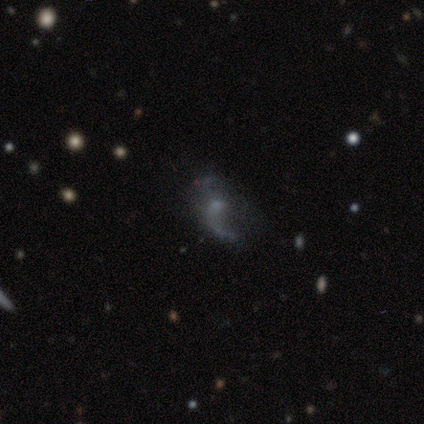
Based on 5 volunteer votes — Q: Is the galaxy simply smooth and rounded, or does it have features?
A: featured or disk — 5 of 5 (100%).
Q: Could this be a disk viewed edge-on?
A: no — 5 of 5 (100%).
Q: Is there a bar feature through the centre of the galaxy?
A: weak — 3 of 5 (60%).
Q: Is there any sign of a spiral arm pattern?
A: yes — 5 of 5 (100%).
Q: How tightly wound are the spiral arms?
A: loose — 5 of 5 (100%).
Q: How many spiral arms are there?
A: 1 — 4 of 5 (80%).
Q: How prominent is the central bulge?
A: small — 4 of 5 (80%).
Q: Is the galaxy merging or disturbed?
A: none — 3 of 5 (60%).